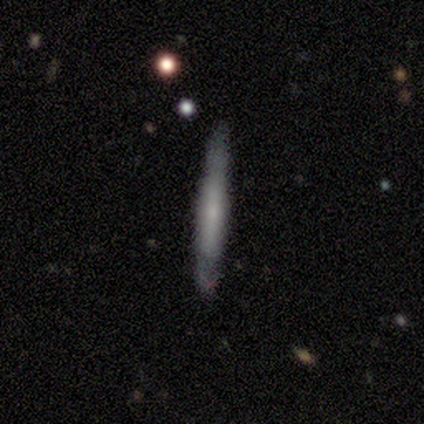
Morphology: type=smooth (58%); roundness=cigar-shaped (95%); merging=none (78%).